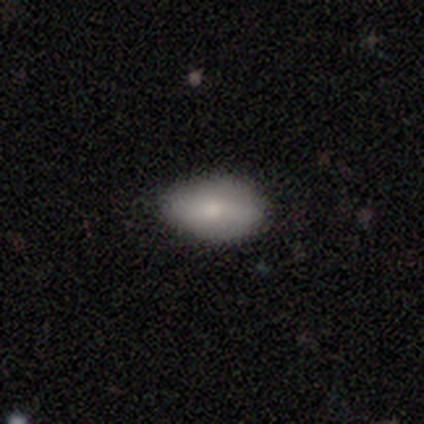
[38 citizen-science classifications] Smooth or featured? smooth (84%)
How rounded? in between (97%)
Merging? none (86%)